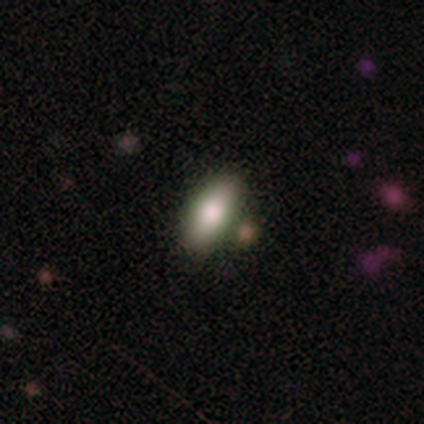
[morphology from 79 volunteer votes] Smooth or featured? 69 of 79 (87%) said smooth. How rounded? 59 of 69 (86%) said in between. Merging? 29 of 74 (39%) said none.